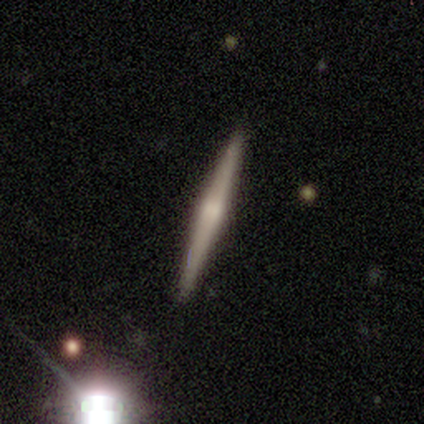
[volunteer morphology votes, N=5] A featured or disk galaxy (40%, tied with star or artifact) viewed edge-on (100%) with no central bulge (50%, tied with rounded).

Vote fractions:
- Smooth or featured? featured or disk: 40% (tied) / star or artifact: 40% (tied) / smooth: 20%
- Edge-on disk? yes: 100% / no: 0%
- Edge-on bulge? none: 50% (tied) / rounded: 50% (tied) / boxy: 0%
- Merging? none: 100% / minor disturbance: 0% / major disturbance: 0% / merger: 0%